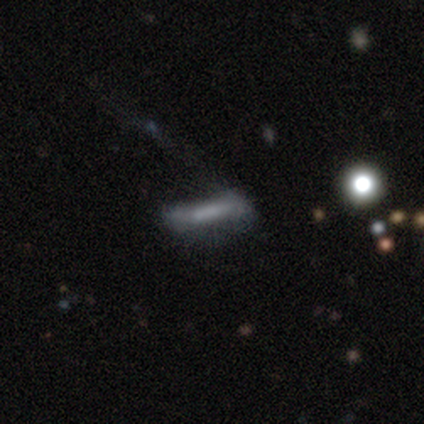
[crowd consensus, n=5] Volunteers were most divided on "spiral arms" (2-way tie): yes: 50%, no: 50%; "bulge size" (2-way tie): large: 50%, none: 50%, dominant: 0%, moderate: 0%, small: 0%. More confident: bar — strong (100%); spiral winding — loose (100%); spiral arm count — 1 (100%); edge-on disk — no (67%); smooth or featured — featured or disk (60%); merging — major disturbance (60%).